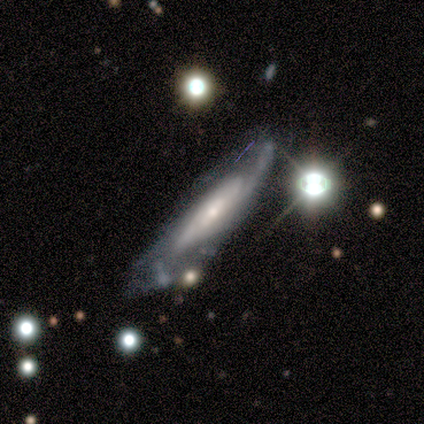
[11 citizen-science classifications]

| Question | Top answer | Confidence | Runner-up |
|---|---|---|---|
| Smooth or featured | featured or disk | 73% | smooth (27%) |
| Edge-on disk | no | 75% | yes (25%) |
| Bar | no | 67% | weak (33%) |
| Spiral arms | yes | 83% | no (17%) |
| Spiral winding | medium | 80% | tight (20%) |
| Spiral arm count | can't tell | 60% | 2 (20%) |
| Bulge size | small | 83% | moderate (17%) |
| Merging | none | 45% | minor disturbance (36%) |